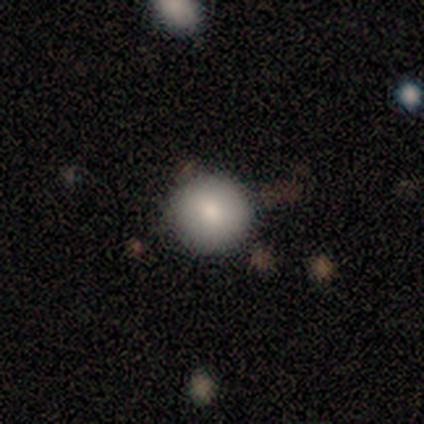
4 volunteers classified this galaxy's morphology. Smooth or featured?
  - smooth: 75% *
  - star or artifact: 25%
  - featured or disk: 0%
How rounded?
  - round: 100% *
  - in between: 0%
  - cigar-shaped: 0%
Merging?
  - none: 67% *
  - minor disturbance: 33%
  - major disturbance: 0%
  - merger: 0%